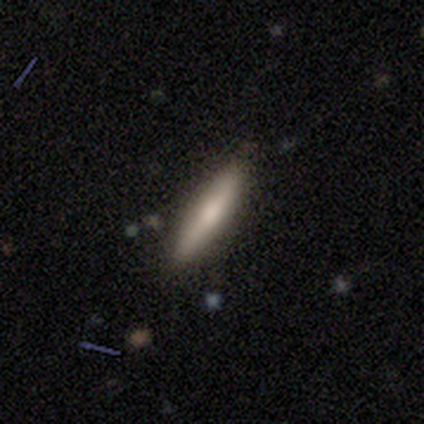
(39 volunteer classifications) A smooth galaxy with no disk features (72%) that is cigar-shaped (82%).

Vote fractions:
- Smooth or featured? smooth: 72% / featured or disk: 23% / star or artifact: 5%
- How rounded? cigar-shaped: 82% / in between: 14% / round: 4%
- Merging? none: 78% / minor disturbance: 16% / major disturbance: 3% / merger: 3%